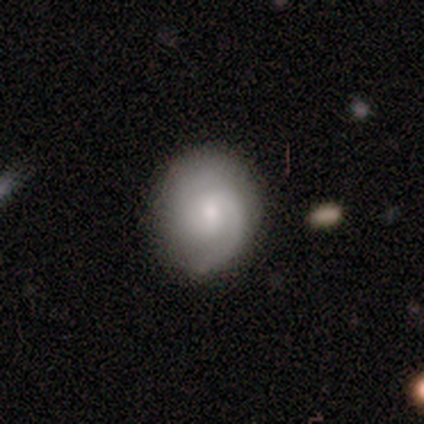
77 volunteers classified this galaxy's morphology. Overall: featured or disk (61%; smooth 31%). Edge-on disk: no (98%). Bar: no (54%; weak 43%). Spiral arms: yes (96%). Spiral arm count: 2 (68%). Spiral winding: medium (50%; tight 39%). Bulge size: moderate (46%; small 35%). Merging: none (77%).